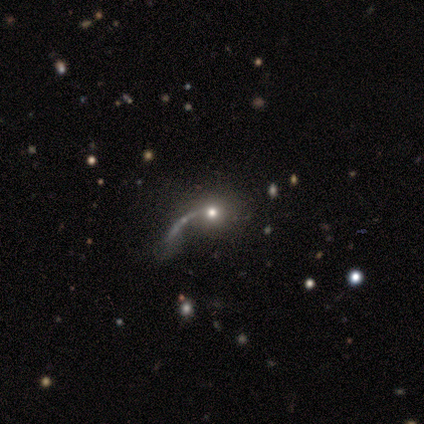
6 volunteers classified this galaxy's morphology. Smooth or featured? 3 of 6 (50%) said smooth. How rounded? 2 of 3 (67%) said round. Merging? 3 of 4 (75%) said major disturbance.